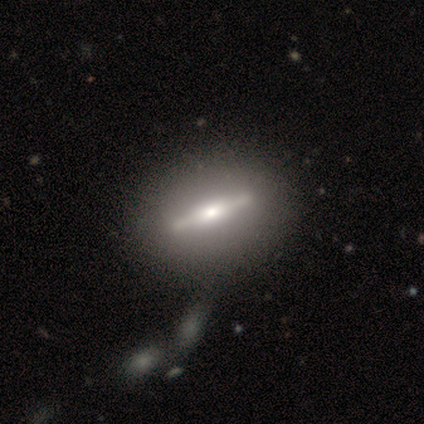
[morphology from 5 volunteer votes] A featured or disk galaxy (80%) viewed edge-on (100%) with a boxy central bulge (50%, tied with rounded). Merging: none (100%).